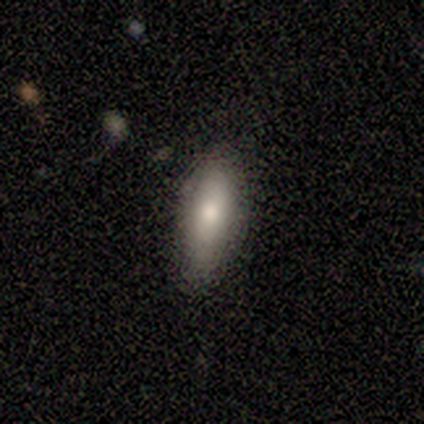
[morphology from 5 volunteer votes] Smooth or featured: smooth — 100%
How rounded: in between — 80% (cigar-shaped — 20%)
Merging: none — 100%